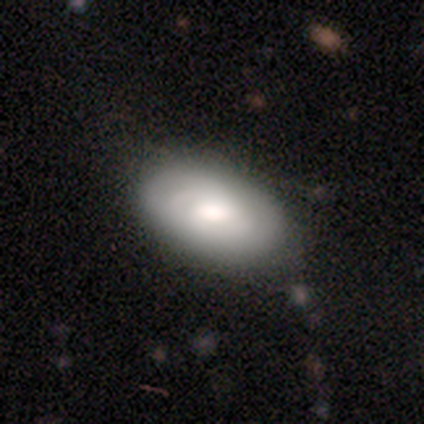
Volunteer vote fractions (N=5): This is likely a featured or disk galaxy (60%). It is clearly not viewed edge-on (100%). Bar: clearly no (100%). Spiral arm pattern: likely yes (67%). Spiral arm count: clearly 2 (100%). Spiral winding: clearly tight (100%). Central bulge: likely large (67%). Merging: likely none (60%).